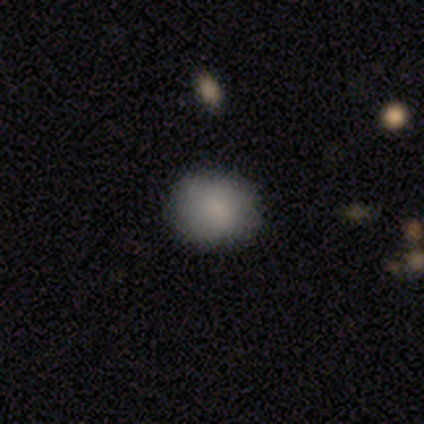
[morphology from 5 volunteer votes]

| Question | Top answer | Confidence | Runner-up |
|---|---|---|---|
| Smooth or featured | smooth | 80% | star or artifact (20%) |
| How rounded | round | 100% | — |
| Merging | none | 50% | tied: minor disturbance (50%) |